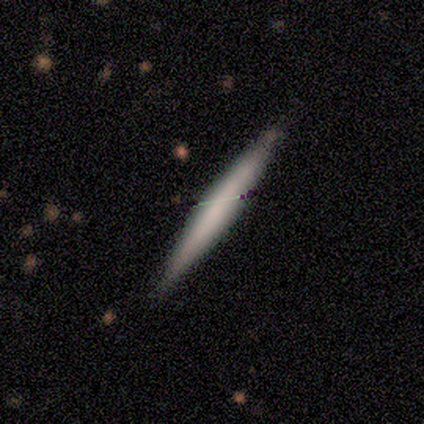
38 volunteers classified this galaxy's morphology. smooth_or_featured: smooth (p=0.63) [alt: featured or disk p=0.34]
how_rounded: cigar-shaped (p=0.96) [alt: in between p=0.04]
merging: none (p=0.51) [alt: minor disturbance p=0.11]